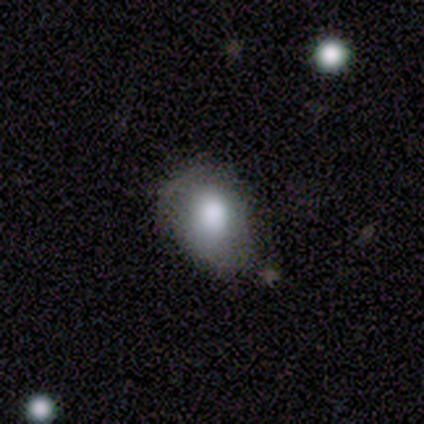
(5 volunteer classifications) This is clearly a smooth galaxy (80%). How rounded: possibly round (50%, tied with in between). Merging: clearly none (80%).